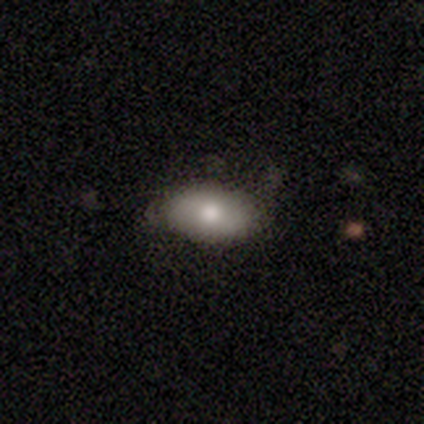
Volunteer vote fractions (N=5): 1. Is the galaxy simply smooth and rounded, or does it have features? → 60% smooth, 40% featured or disk, 0% star or artifact.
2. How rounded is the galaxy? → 100% in between, 0% round, 0% cigar-shaped.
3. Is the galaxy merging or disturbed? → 40% none (tied), 40% minor disturbance (tied), 20% major disturbance, 0% merger.